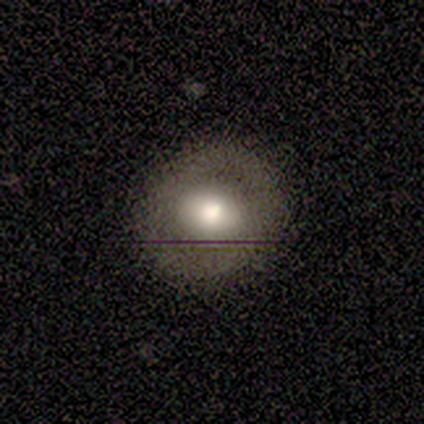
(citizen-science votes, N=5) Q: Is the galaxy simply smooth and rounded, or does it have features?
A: featured or disk — 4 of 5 (80%).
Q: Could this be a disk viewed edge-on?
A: no — 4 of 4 (100%).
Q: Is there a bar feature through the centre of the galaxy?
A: no — 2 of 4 (50%).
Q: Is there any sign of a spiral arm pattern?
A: yes — 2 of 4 (50%, tied with no).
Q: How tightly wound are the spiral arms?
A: medium — 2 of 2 (100%).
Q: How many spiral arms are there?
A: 2 — 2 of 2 (100%).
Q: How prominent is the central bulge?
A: large — 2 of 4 (50%, tied with moderate).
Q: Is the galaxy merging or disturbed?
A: none — 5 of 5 (100%).